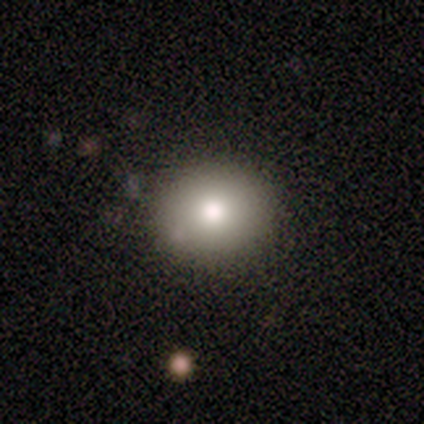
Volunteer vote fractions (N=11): smooth-or-featured: smooth: 91% | featured or disk: 9% | star or artifact: 0%
  how-rounded: round: 60% | in between: 40% | cigar-shaped: 0%
  merging: none: 91% | minor disturbance: 9% | major disturbance: 0% | merger: 0%